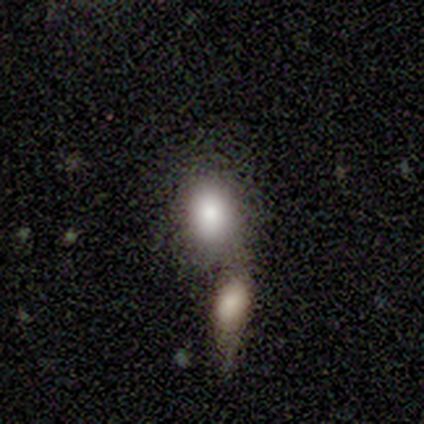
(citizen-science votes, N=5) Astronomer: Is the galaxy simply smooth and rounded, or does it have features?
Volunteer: smooth — 80%.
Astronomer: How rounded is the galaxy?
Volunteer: round — 50%, tied with in between at 50%.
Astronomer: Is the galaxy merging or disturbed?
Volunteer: none — 50%, tied with merger at 50%.